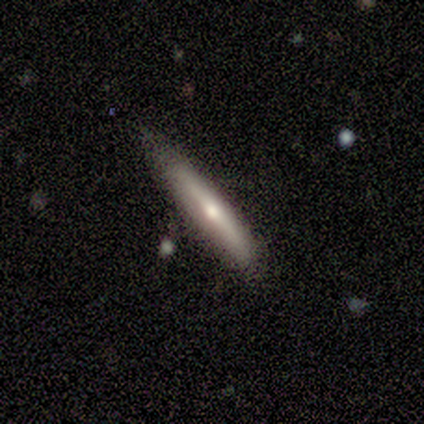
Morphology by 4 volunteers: This appears to be a featured or disk galaxy (75%) viewed edge-on (100%) with no central bulge (67%). Merging: none (100%).